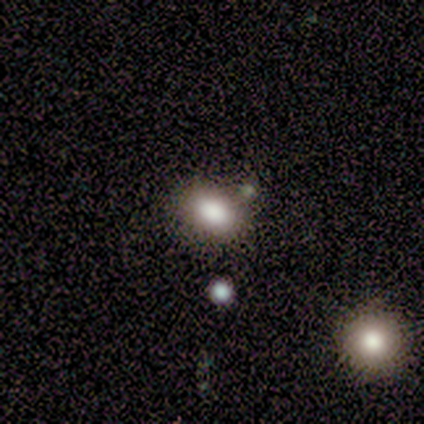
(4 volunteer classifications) Volunteers were most divided on "smooth or featured": star or artifact: 50%, smooth: 25%, featured or disk: 25%.